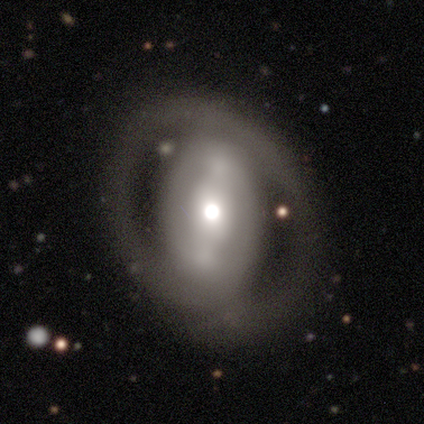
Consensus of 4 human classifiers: A smooth galaxy with no disk features (50%, tied with featured or disk) that is in between round and cigar-shaped (100%). Merging: none (50%, tied with major disturbance).